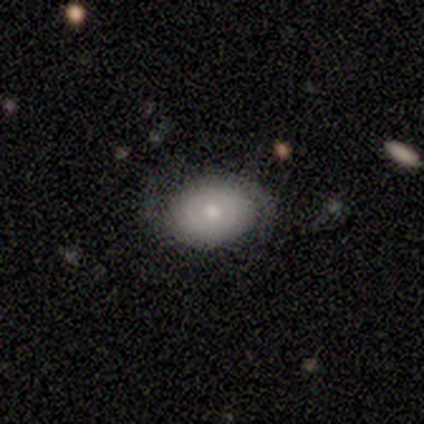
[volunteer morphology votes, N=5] smooth_or_featured: featured or disk (p=0.60) [alt: smooth p=0.40]
disk_edge_on: no (p=1.00)
bar: no (p=1.00)
has_spiral_arms: yes (p=0.67) [alt: no p=0.33]
spiral_winding: tight (p=1.00)
spiral_arm_count: 1 (p=0.50) [tied with: 2 p=0.50]
bulge_size: small (p=0.67) [alt: moderate p=0.33]
merging: none (p=1.00)